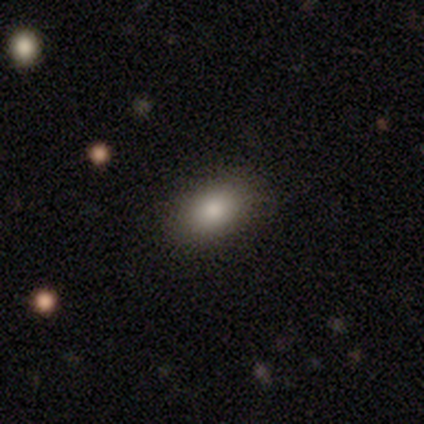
A smooth galaxy with no disk features (82%) that is in between round and cigar-shaped (78%).

Vote fractions:
- Smooth or featured? smooth: 82% / star or artifact: 11% / featured or disk: 7%
- How rounded? in between: 78% / round: 19% / cigar-shaped: 3%
- Merging? none: 95% / minor disturbance: 2% / major disturbance: 2% / merger: 0%